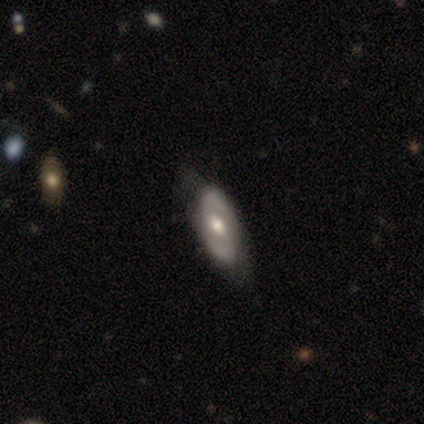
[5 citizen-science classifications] A featured or disk galaxy (100%) with a weak bar (50%, tied with no), 2 (100%) tight (50%, tied with medium) spiral arms (50%, tied with no) and a large central bulge (50%, tied with moderate). Merging: none (40%).